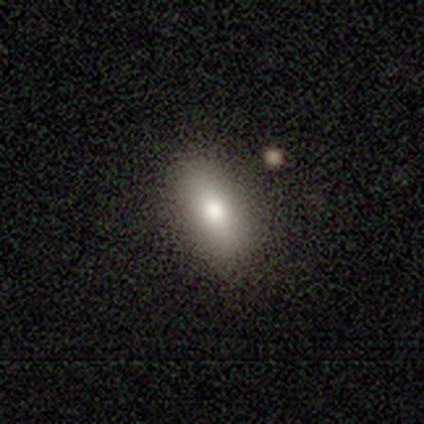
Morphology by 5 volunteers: This is clearly a smooth galaxy (80%). How rounded: likely in between (75%). Merging: likely none (75%).